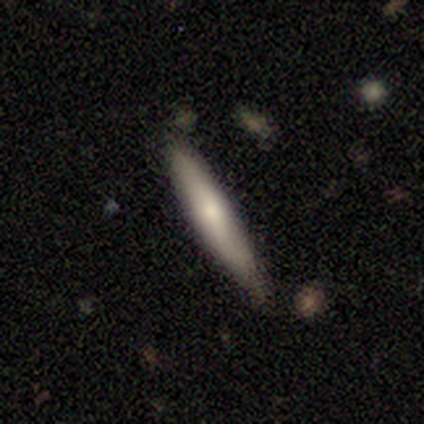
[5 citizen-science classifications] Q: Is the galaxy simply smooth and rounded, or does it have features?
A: smooth — 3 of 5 (60%).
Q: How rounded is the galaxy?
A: cigar-shaped — 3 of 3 (100%).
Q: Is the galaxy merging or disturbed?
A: none — 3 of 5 (60%).